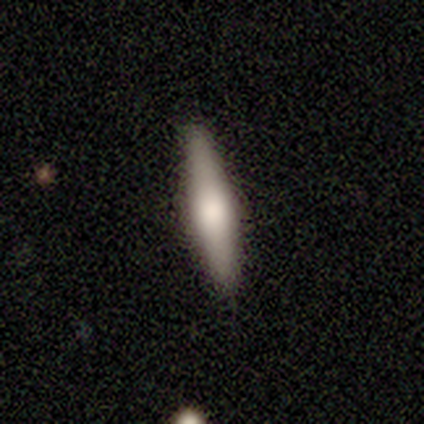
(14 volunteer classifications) smooth 50% (tied), featured or disk 50% (tied), star or artifact 0%. Down the decision tree: how rounded — cigar-shaped (71%); merging — none (93%).